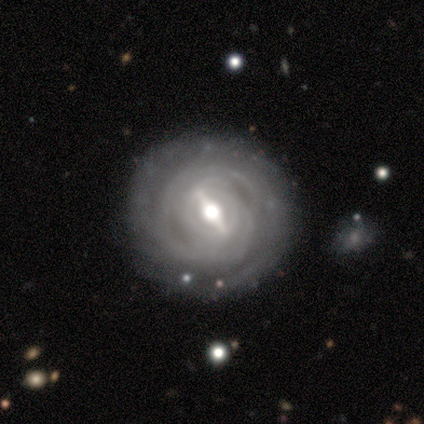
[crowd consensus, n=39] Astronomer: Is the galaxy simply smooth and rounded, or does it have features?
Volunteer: featured or disk — 90%.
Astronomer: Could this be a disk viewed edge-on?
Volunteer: no — 97%.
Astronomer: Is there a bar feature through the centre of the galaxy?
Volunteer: strong — 68%.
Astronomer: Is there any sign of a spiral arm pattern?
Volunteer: yes — 91%.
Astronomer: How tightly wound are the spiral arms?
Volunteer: tight — 84%.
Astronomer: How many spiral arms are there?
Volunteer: can't tell — 52%.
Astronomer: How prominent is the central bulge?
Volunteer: moderate — 68%.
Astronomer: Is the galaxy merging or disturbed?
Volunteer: none — 89%.